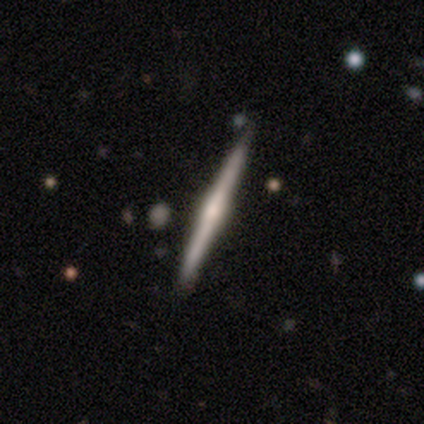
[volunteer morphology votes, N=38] Smooth or featured? featured or disk (79%)
Edge-on disk? yes (97%)
Edge-on bulge? rounded (69%)
Merging? none (56%)